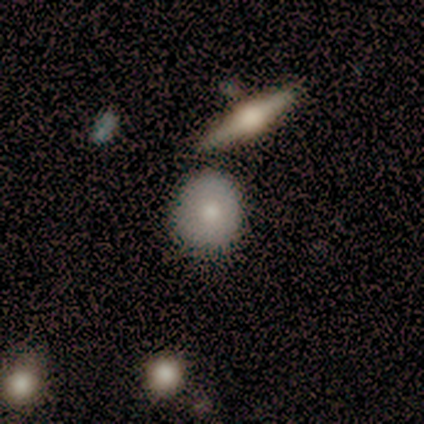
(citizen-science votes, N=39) This is likely a smooth galaxy (62%). How rounded: likely round (67%). Merging: possibly none (50%).